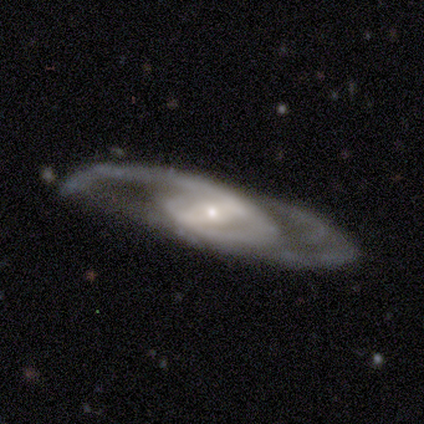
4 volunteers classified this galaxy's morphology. This is likely a featured or disk galaxy (75%). It is clearly not viewed edge-on (100%). Bar: marginally strong (33%, tied with weak and no). Spiral arm pattern: clearly yes (100%). Spiral arm count: likely 2 (67%). Spiral winding: likely medium (67%). Central bulge: clearly small (100%). Merging: marginally none (33%, tied with minor disturbance and major disturbance).